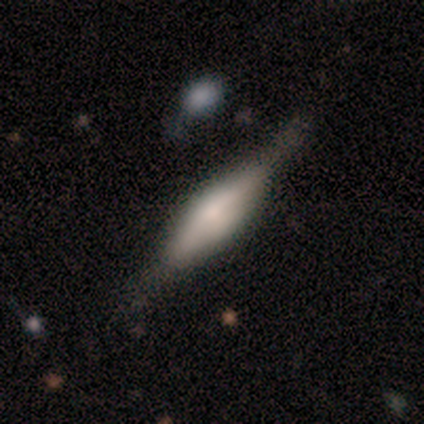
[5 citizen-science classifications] smooth_or_featured: featured or disk (p=0.60) [alt: smooth p=0.40]
disk_edge_on: yes (p=1.00)
edge_on_bulge: rounded (p=1.00)
merging: none (p=0.60) [alt: minor disturbance p=0.20]